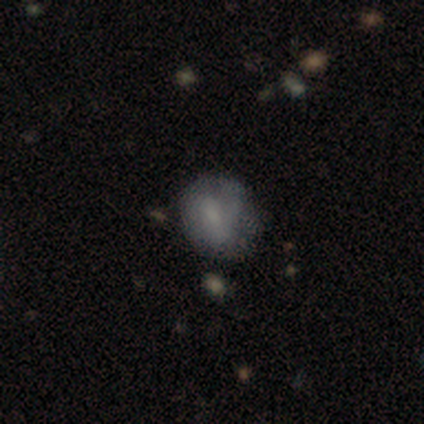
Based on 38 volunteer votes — smooth-or-featured: smooth: 66% | featured or disk: 29% | star or artifact: 5%
  how-rounded: round: 68% | in between: 32% | cigar-shaped: 0%
  merging: none: 47% | minor disturbance: 42% | major disturbance: 11% | merger: 0%